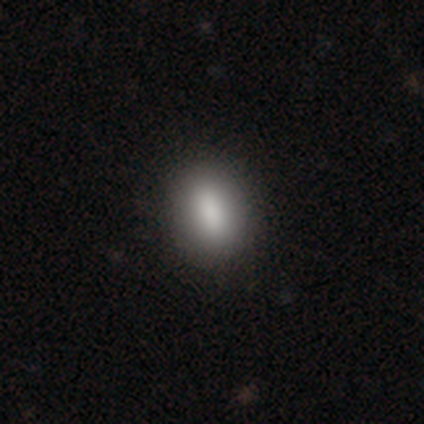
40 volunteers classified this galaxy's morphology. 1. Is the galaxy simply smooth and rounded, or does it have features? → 82% smooth, 10% featured or disk, 8% star or artifact.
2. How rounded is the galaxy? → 79% in between, 18% round, 3% cigar-shaped.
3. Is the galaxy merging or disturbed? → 68% none, 5% minor disturbance, 0% major disturbance, 0% merger.